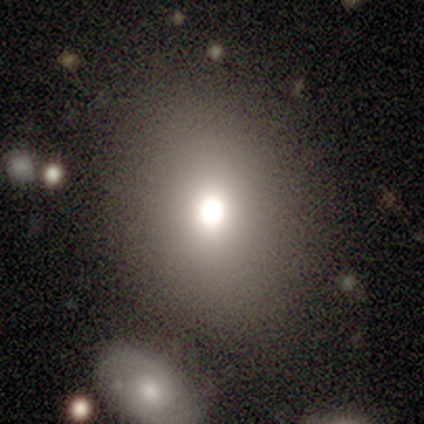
Overall: smooth (80%). How rounded: in between (75%). Merging: none (100%).